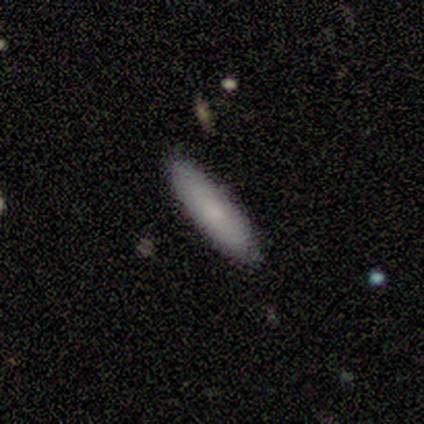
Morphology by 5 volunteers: smooth 60%, featured or disk 40%, star or artifact 0%. Down the decision tree: how rounded — cigar-shaped (100%); merging — none (80%).